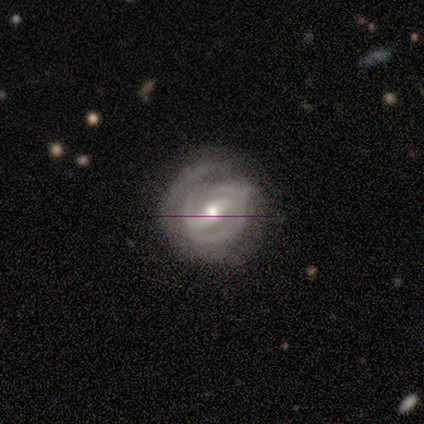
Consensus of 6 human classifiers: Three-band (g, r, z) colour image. It shows a featured or disk galaxy (83%) with a strong bar (75%), 2 (100%) tight (67%) spiral arms (75%) and a moderate central bulge (75%). Merging: none (67%).